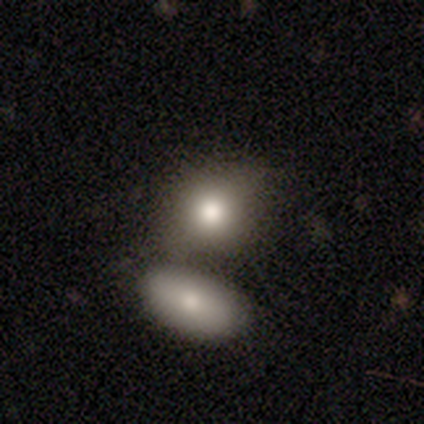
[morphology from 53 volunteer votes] Volunteers were most divided on "merging" (2-way tie): none: 39%, merger: 39%, minor disturbance: 20%, major disturbance: 2%. More confident: smooth or featured — smooth (91%); how rounded — round (50%).